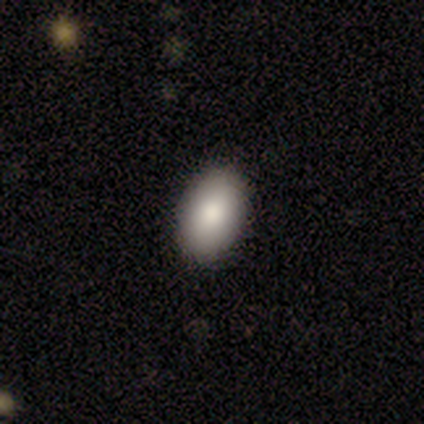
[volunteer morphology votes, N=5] This is marginally a smooth galaxy (40%, tied with featured or disk). How rounded: clearly in between (100%). Merging: clearly none (100%).